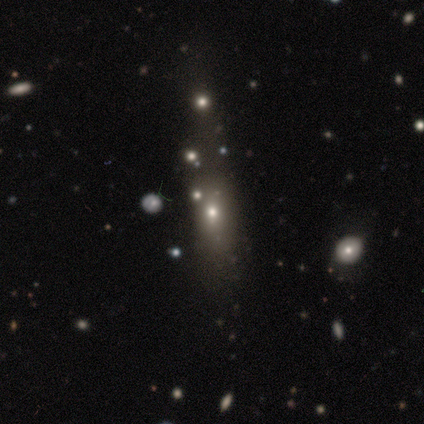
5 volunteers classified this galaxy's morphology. This is marginally a smooth galaxy (40%, tied with featured or disk). How rounded: possibly in between (50%, tied with cigar-shaped). Merging: possibly none (50%).